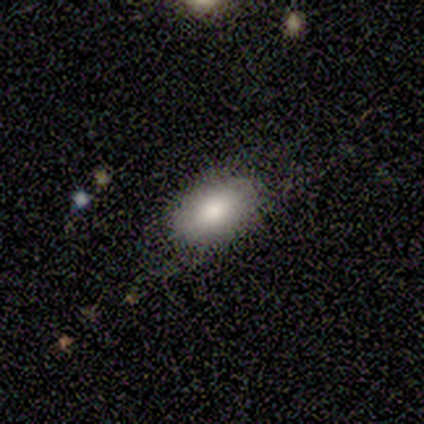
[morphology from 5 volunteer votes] Smooth or featured? 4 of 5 (80%) said smooth. How rounded? 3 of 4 (75%) said in between. Merging? 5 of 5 (100%) said none.